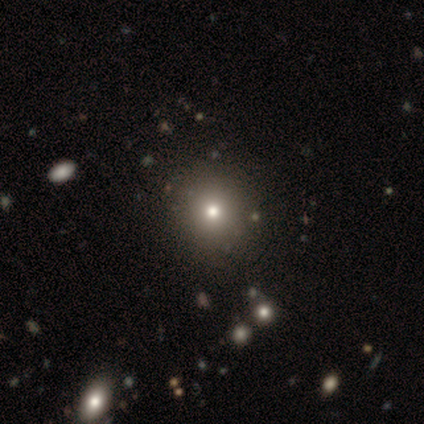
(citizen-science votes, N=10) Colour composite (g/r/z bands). It shows a smooth galaxy with no disk features (70%) that is round (100%). Merging: none (100%).